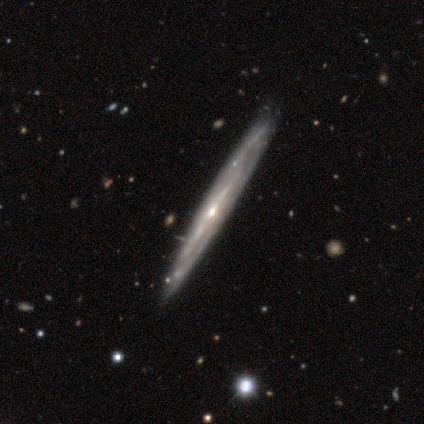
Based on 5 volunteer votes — A featured or disk galaxy (80%) viewed edge-on (100%) with no central bulge (50%, tied with rounded). Merging: none (80%).